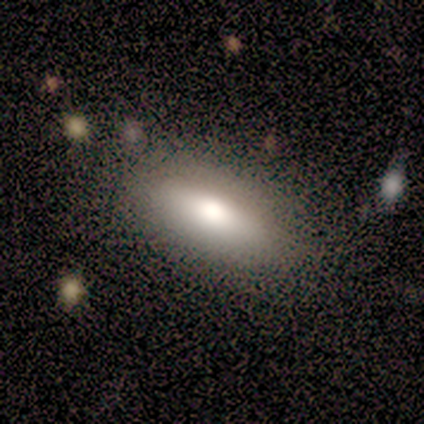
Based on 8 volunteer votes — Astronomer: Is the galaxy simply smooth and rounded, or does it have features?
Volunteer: smooth — 100%.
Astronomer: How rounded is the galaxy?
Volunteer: in between — 62%.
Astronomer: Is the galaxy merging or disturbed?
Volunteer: none — 75%.